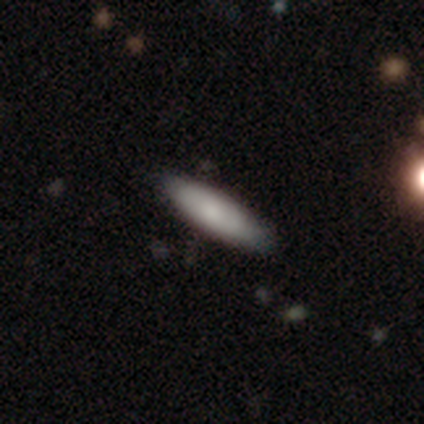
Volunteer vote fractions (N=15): Smooth or featured? 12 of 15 (80%) said smooth. How rounded? 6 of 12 (50%, tied with cigar-shaped) said in between. Merging? 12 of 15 (80%) said none.